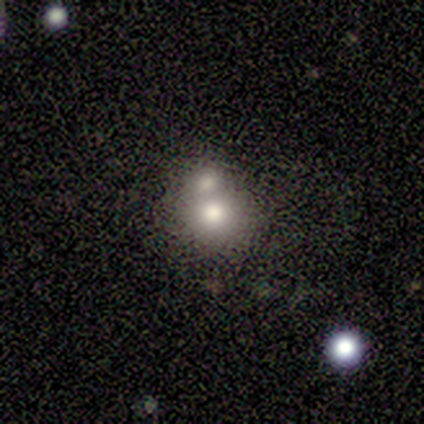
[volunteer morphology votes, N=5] smooth 80%, star or artifact 20%, featured or disk 0%. Down the decision tree: how rounded — round (75%); merging — merger (50%).